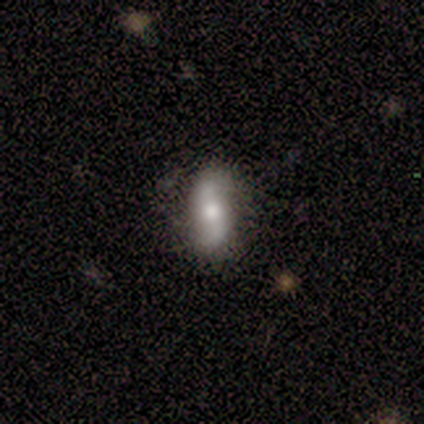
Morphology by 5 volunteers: Smooth or featured? featured or disk (60%)
Edge-on disk? no (67%)
Bar? weak (50%, tied with no)
Spiral arms? yes (100%)
Spiral winding? loose (100%)
Spiral arm count? 2 (100%)
Bulge size? moderate (100%)
Merging? none (60%)